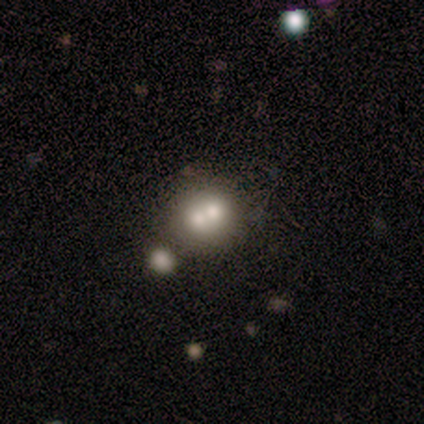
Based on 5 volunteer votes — Smooth or featured: smooth — 40% (tied with featured or disk — 40%)
How rounded: round — 50% (tied with cigar-shaped — 50%)
Merging: minor disturbance — 50% (tied with merger — 50%)